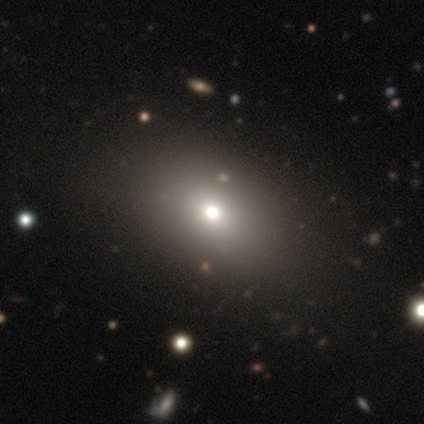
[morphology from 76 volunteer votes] Smooth or featured? smooth (68%)
How rounded? in between (62%)
Merging? none (40%)